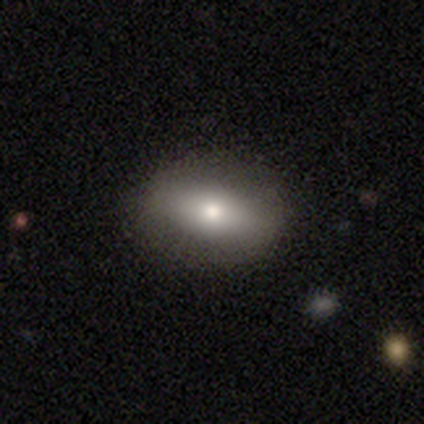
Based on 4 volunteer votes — A smooth galaxy with no disk features (50%, tied with featured or disk) that is round (50%, tied with in between).

Vote fractions:
- Smooth or featured? smooth: 50% (tied) / featured or disk: 50% (tied) / star or artifact: 0%
- How rounded? round: 50% (tied) / in between: 50% (tied) / cigar-shaped: 0%
- Merging? none: 75% / minor disturbance: 25% / major disturbance: 0% / merger: 0%